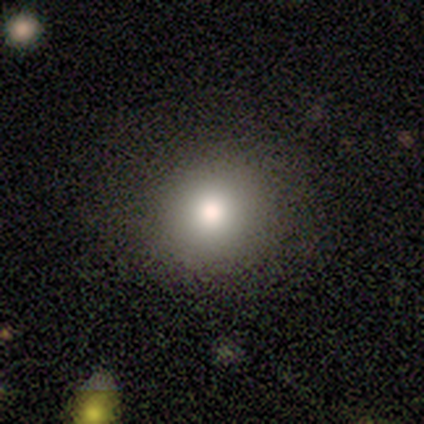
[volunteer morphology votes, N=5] A smooth galaxy with no disk features (80%) that is round (100%). Merging: none (100%).